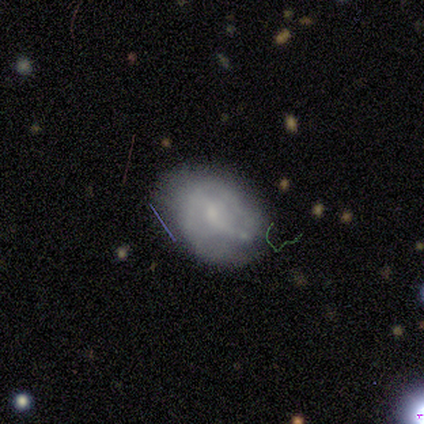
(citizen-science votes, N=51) Morphology: type=featured or disk (65%); edge-on=no (100%); bar=no (52%); spiral arms=yes (58%); winding=tight (42%, tied with medium); arm count=2 (37%, tied with can't tell); bulge=small (48%); merging=none (57%).